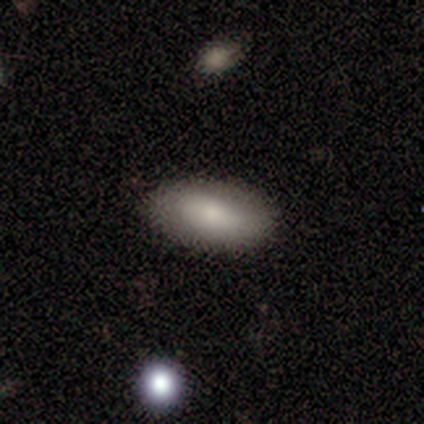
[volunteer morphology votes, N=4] A smooth galaxy with no disk features (100%) that is in between round and cigar-shaped (100%). Merging: none (50%, tied with minor disturbance).